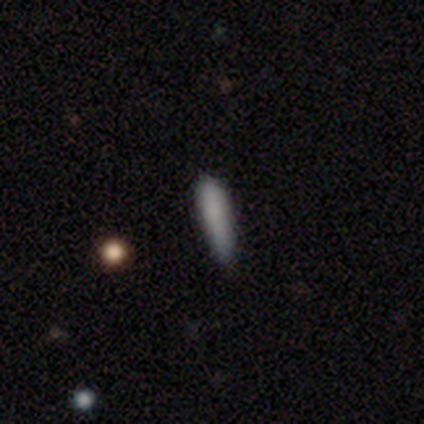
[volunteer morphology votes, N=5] type=smooth (100%); roundness=cigar-shaped (100%); merging=none (80%).